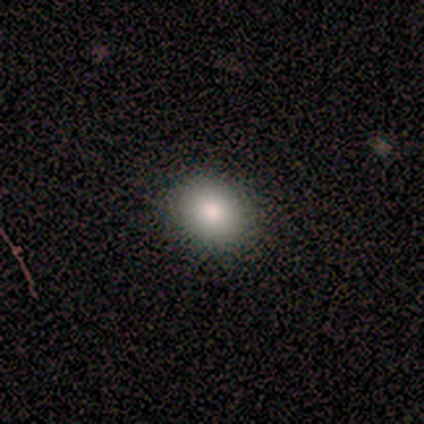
A smooth galaxy with no disk features (80%) that is in between round and cigar-shaped (75%).

Vote fractions:
- Smooth or featured? smooth: 80% / star or artifact: 20% / featured or disk: 0%
- How rounded? in between: 75% / round: 25% / cigar-shaped: 0%
- Merging? none: 100% / minor disturbance: 0% / major disturbance: 0% / merger: 0%